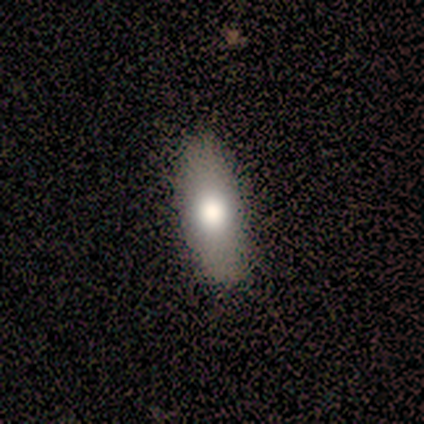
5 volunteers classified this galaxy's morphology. smooth_or_featured: smooth (p=0.80) [alt: featured or disk p=0.20]
how_rounded: in between (p=0.50) [alt: round p=0.25]
merging: none (p=0.60) [alt: minor disturbance p=0.20]